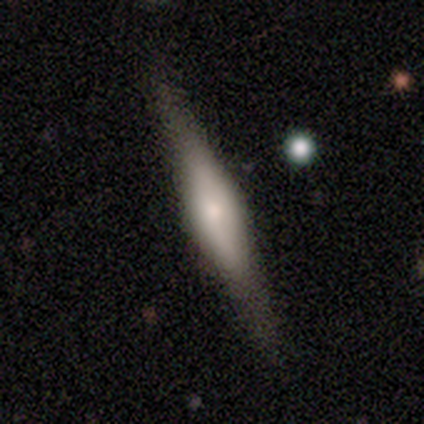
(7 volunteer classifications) Smooth or featured?
  - featured or disk: 71% *
  - smooth: 29%
  - star or artifact: 0%
Edge-on disk?
  - yes: 100% *
  - no: 0%
Edge-on bulge?
  - rounded: 60% *
  - boxy: 20%
  - none: 20%
Merging?
  - none: 86% *
  - minor disturbance: 14%
  - major disturbance: 0%
  - merger: 0%